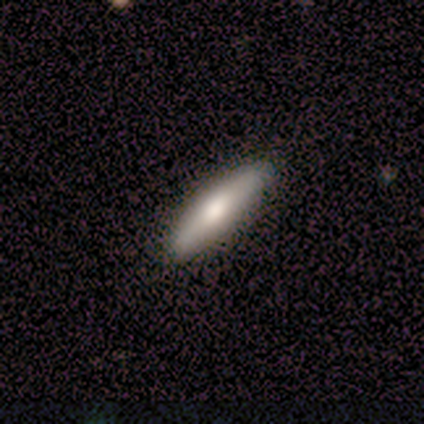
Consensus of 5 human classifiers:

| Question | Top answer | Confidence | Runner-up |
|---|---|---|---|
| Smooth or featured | smooth | 80% | featured or disk (20%) |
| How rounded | cigar-shaped | 75% | in between (25%) |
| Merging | none | 100% | — |